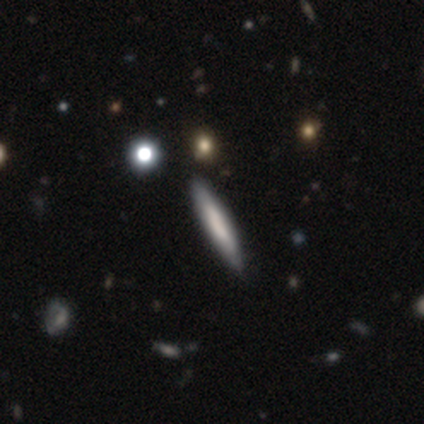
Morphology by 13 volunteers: Smooth or featured: featured or disk — 54% (smooth — 46%)
Edge-on disk: yes — 100%
Edge-on bulge: boxy — 71% (none — 29%)
Merging: none — 100%